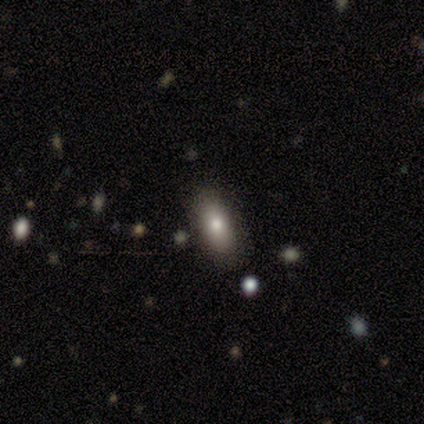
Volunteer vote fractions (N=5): Q: Smooth or featured?
A: smooth (60%); runner-up: featured or disk (20%)
Q: How rounded?
A: in between (100%)
Q: Merging?
A: none (100%)